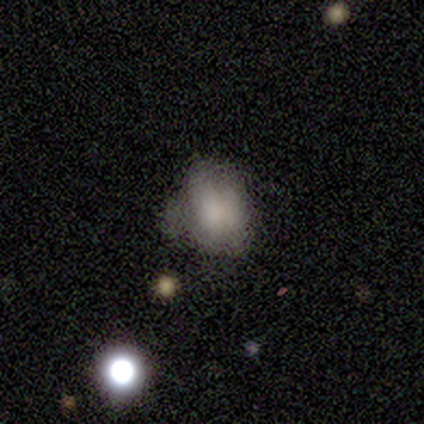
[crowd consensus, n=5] smooth 80%, featured or disk 20%, star or artifact 0%. Down the decision tree: how rounded — round (50%, tied with in between); merging — none (60%).